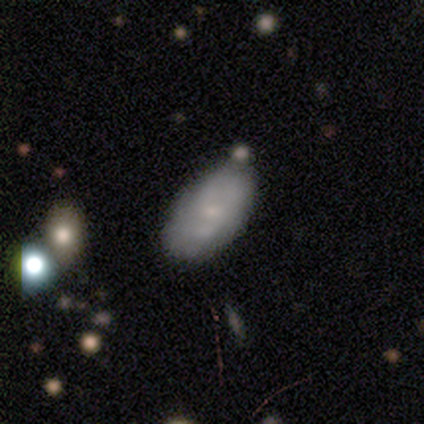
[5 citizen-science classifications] Smooth or featured: smooth — 80% (featured or disk — 20%)
How rounded: in between — 75% (round — 25%)
Merging: none — 100%